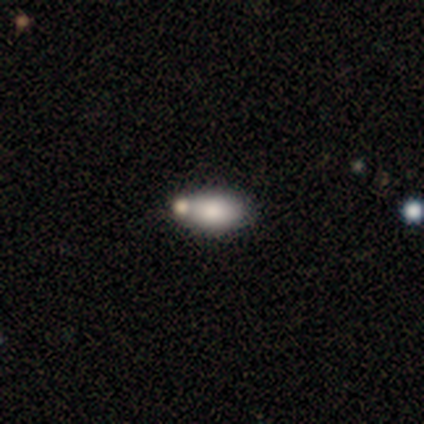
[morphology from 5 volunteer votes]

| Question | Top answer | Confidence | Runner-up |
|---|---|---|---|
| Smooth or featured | smooth | 40% | tied: star or artifact (40%) |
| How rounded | in between | 100% | — |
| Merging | none | 67% | merger (33%) |